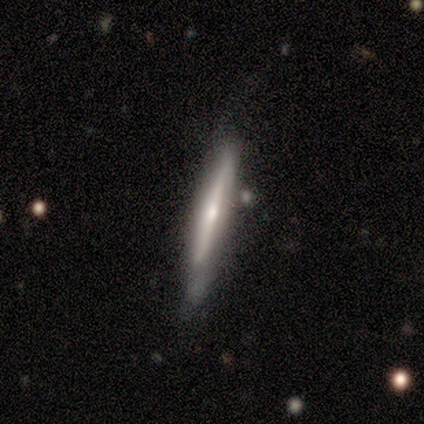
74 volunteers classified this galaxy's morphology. smooth_or_featured: featured or disk (p=0.72) [alt: smooth p=0.26]
disk_edge_on: yes (p=0.89) [alt: no p=0.11]
edge_on_bulge: rounded (p=0.72) [alt: none p=0.21]
merging: none (p=0.47) [alt: minor disturbance p=0.38]